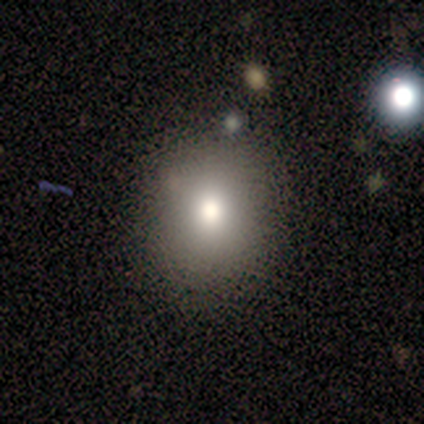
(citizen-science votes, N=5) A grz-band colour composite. It shows a smooth galaxy with no disk features (100%) that is round (80%). Merging: none (80%).